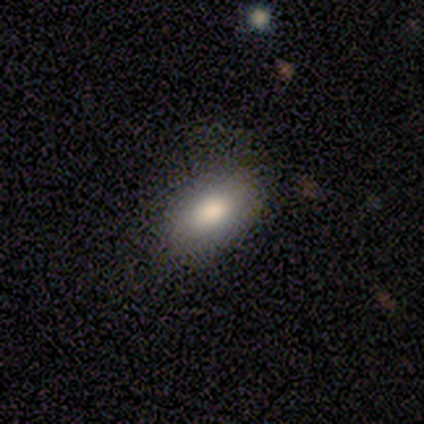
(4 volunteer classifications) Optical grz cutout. It shows a smooth galaxy with no disk features (75%) that is in between round and cigar-shaped (100%). Merging: none (100%).